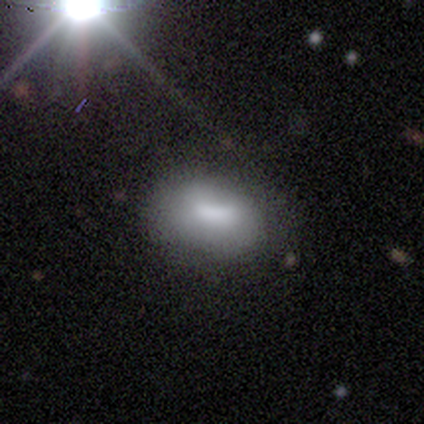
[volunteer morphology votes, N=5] Smooth or featured: smooth — 60% (featured or disk — 40%)
How rounded: in between — 100%
Merging: none — 60% (minor disturbance — 40%)